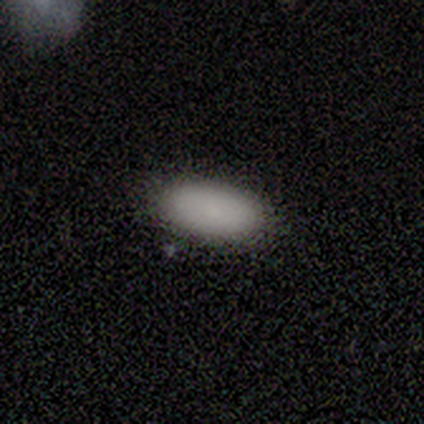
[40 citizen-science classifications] Volunteers were most divided on "merging": none: 85%, minor disturbance: 13%, major disturbance: 3%, merger: 0%. More confident: how rounded — in between (100%); smooth or featured — smooth (88%).